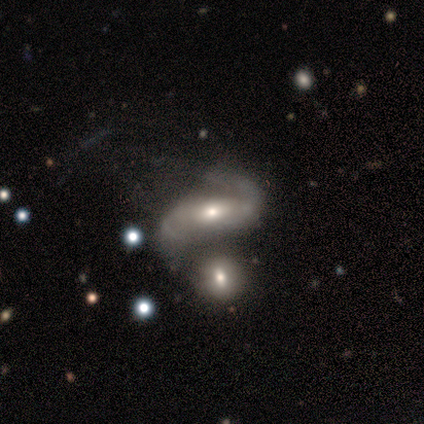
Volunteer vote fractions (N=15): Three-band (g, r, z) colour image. It shows a featured or disk galaxy (93%) with no bar (50%), 2 (100%) loose (77%) spiral arms (93%) and a small central bulge (71%). Merging: merger (40%).